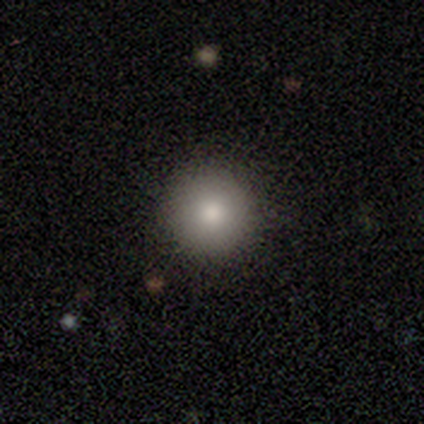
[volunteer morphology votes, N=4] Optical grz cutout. It shows a smooth galaxy with no disk features (100%) that is round (100%). Merging: none (100%).